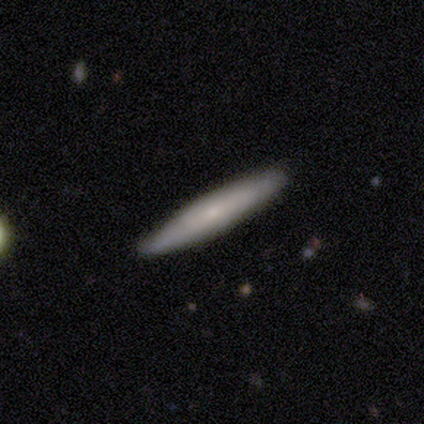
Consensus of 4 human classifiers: A featured or disk galaxy (75%) viewed edge-on (100%) with a boxy central bulge (33%, tied with none and rounded). Merging: none (100%).